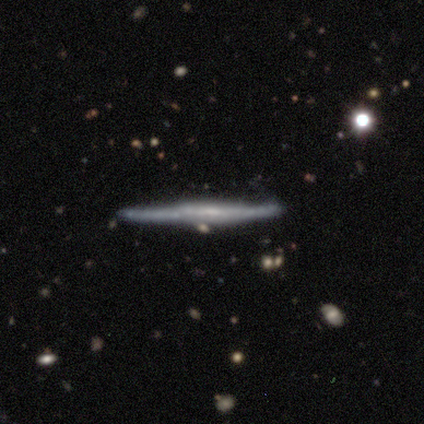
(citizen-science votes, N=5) Smooth or featured? 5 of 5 (100%) said featured or disk. Edge-on disk? 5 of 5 (100%) said yes. Edge-on bulge? 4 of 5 (80%) said none. Merging? 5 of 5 (100%) said none.